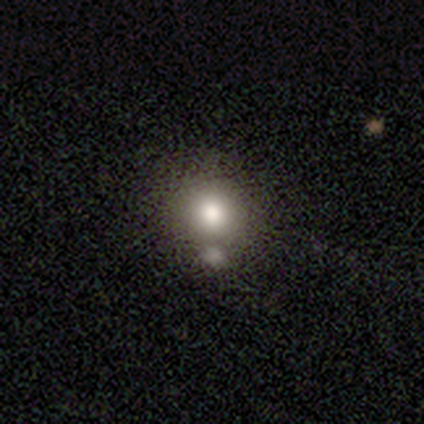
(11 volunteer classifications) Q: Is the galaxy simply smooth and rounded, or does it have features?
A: smooth — 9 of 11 (82%).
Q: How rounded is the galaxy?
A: round — 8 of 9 (89%).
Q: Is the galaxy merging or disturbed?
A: none — 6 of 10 (60%).